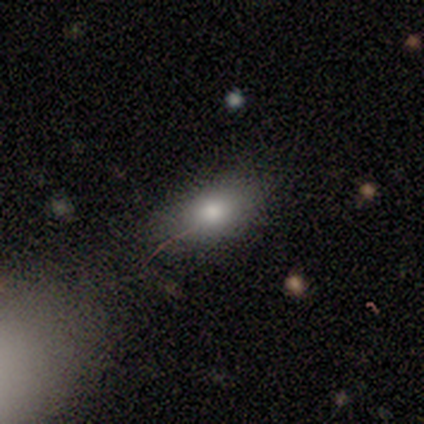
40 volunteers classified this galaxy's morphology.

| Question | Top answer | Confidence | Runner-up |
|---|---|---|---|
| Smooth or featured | smooth | 82% | star or artifact (12%) |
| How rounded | in between | 76% | round (12%) |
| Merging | none | 60% | minor disturbance (29%) |